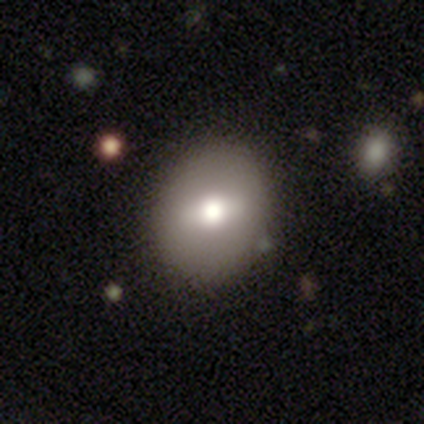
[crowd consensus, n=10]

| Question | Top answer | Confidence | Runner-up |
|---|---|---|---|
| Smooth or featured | smooth | 70% | featured or disk (20%) |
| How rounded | in between | 71% | round (29%) |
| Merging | none | 67% | minor disturbance (22%) |